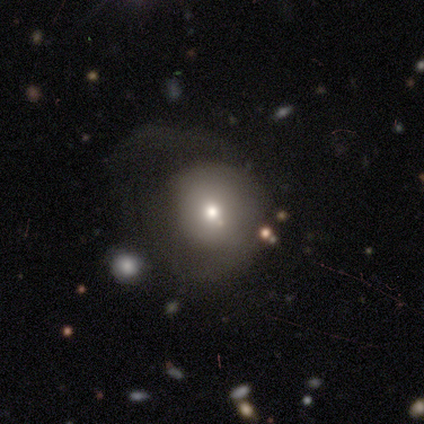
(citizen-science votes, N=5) Morphology: type=smooth (40%, tied with star or artifact); roundness=round (50%, tied with in between); merging=none (33%, tied with minor disturbance and major disturbance).